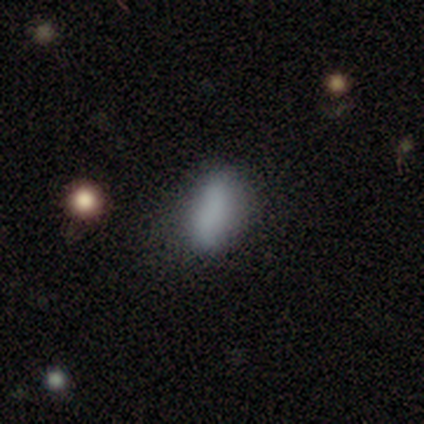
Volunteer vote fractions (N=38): smooth-or-featured: smooth: 87% | featured or disk: 8% | star or artifact: 5%
  how-rounded: in between: 76% | cigar-shaped: 24% | round: 0%
  merging: none: 58% | minor disturbance: 36% | major disturbance: 6% | merger: 0%